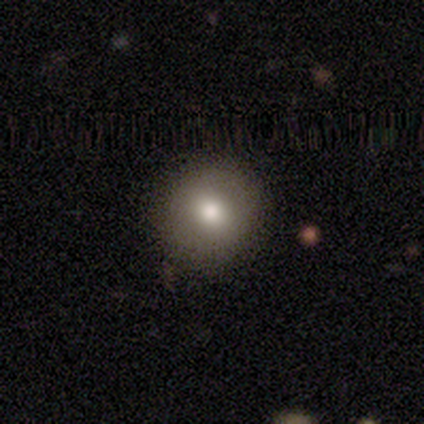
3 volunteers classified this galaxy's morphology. Smooth or featured? 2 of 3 (67%) said smooth. How rounded? 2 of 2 (100%) said round. Merging? 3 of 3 (100%) said none.